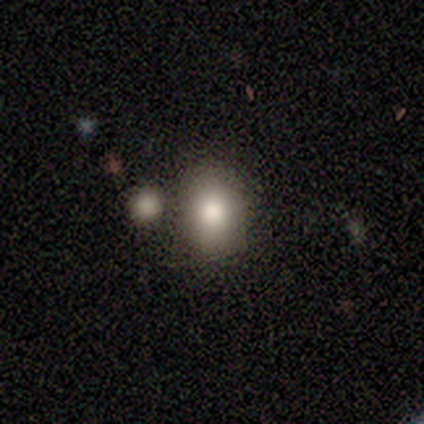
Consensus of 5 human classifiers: Overall: smooth (80%). How rounded: round (50%, tied with in between). Merging: none (50%; minor disturbance 25%).